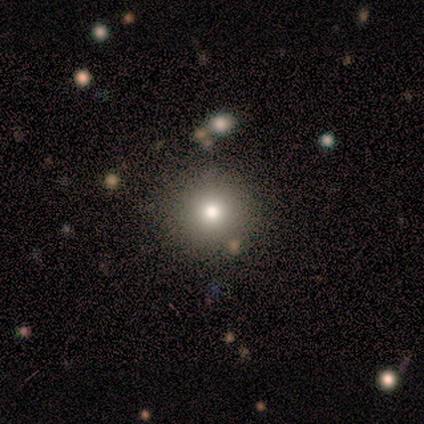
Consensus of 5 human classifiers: smooth_or_featured: star or artifact (p=0.60) [alt: smooth p=0.40]